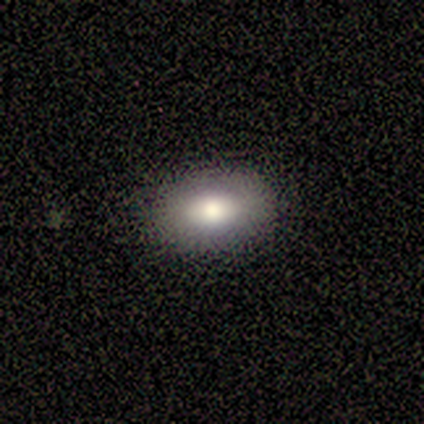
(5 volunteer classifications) Smooth or featured? 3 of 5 (60%) said smooth. How rounded? 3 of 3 (100%) said in between. Merging? 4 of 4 (100%) said none.